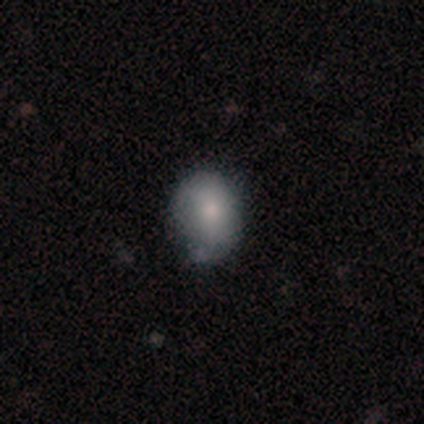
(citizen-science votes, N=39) Smooth or featured?
  - smooth: 74% *
  - featured or disk: 23%
  - star or artifact: 3%
How rounded?
  - in between: 59% *
  - round: 41%
  - cigar-shaped: 0%
Merging?
  - none: 42% *
  - minor disturbance: 21%
  - major disturbance: 3%
  - merger: 3%